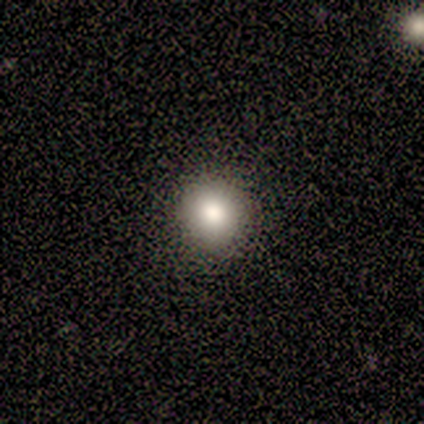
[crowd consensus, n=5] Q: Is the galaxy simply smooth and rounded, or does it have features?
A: smooth — 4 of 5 (80%).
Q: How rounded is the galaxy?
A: round — 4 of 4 (100%).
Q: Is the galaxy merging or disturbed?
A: none — 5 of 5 (100%).